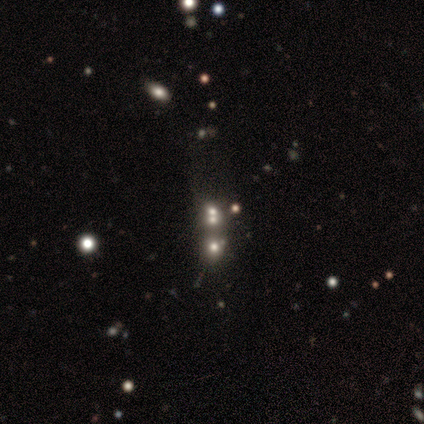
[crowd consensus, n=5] A featured or disk galaxy (40%, tied with star or artifact) with no bar (100%), no spiral arms (100%) and no central bulge (100%).

Vote fractions:
- Smooth or featured? featured or disk: 40% (tied) / star or artifact: 40% (tied) / smooth: 20%
- Edge-on disk? no: 100% / yes: 0%
- Bar? no: 100% / strong: 0% / weak: 0%
- Spiral arms? no: 100% / yes: 0%
- Bulge size? none: 100% / dominant: 0% / large: 0% / moderate: 0% / small: 0%
- Merging? merger: 100% / none: 0% / minor disturbance: 0% / major disturbance: 0%